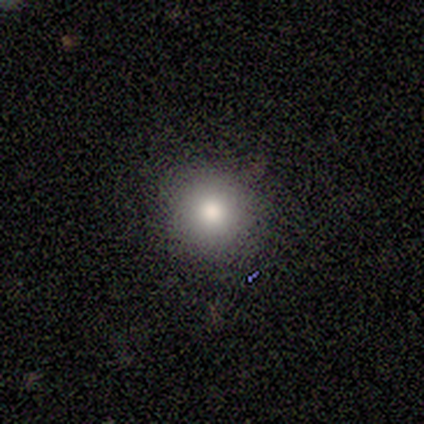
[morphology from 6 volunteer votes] Smooth or featured?
  - smooth: 67% *
  - star or artifact: 33%
  - featured or disk: 0%
How rounded?
  - round: 100% *
  - in between: 0%
  - cigar-shaped: 0%
Merging?
  - none: 100% *
  - minor disturbance: 0%
  - major disturbance: 0%
  - merger: 0%